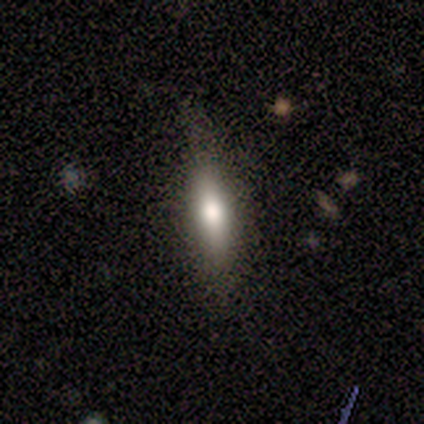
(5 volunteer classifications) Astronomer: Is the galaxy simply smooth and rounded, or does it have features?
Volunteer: smooth — 60% (runner-up: featured or disk, 40%).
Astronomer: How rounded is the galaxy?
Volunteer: in between — 67%.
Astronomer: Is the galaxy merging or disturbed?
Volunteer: none — 80%.